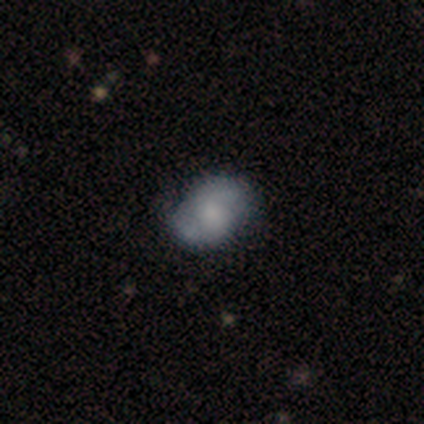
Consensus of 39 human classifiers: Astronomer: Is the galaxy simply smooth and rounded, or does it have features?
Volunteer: featured or disk — 44% (runner-up: smooth, 41%).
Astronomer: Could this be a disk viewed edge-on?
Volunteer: no — 94%.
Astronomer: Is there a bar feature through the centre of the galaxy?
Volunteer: no — 62%.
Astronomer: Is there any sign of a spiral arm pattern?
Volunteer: yes — 81%.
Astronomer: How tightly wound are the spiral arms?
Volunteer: medium — 38%, tied with loose at 38%.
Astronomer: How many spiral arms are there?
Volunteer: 2 — 85%.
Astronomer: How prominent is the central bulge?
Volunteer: small — 38% (runner-up: large, 19%).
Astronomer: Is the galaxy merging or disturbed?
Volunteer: none — 55% (runner-up: minor disturbance, 39%).